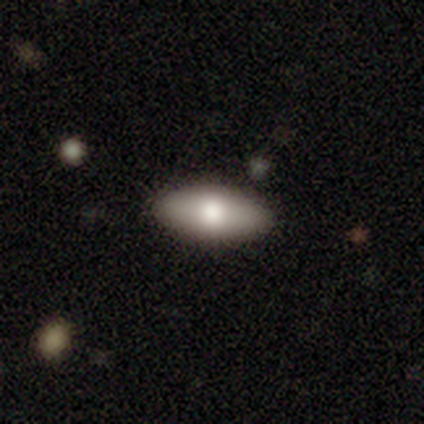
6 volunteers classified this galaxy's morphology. smooth_or_featured: smooth (p=1.00)
how_rounded: in between (p=1.00)
merging: none (p=1.00)